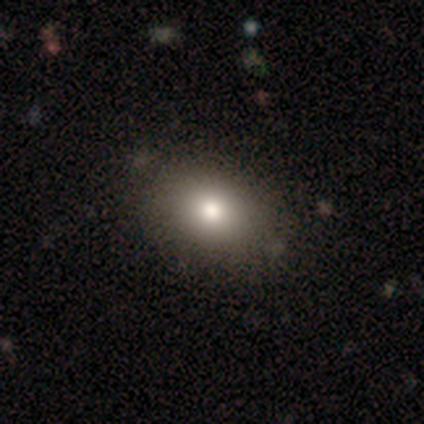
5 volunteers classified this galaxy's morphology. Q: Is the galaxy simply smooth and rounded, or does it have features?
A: smooth — 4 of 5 (80%).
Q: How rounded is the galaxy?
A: in between — 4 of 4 (100%).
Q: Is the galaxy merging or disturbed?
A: none — 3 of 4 (75%).